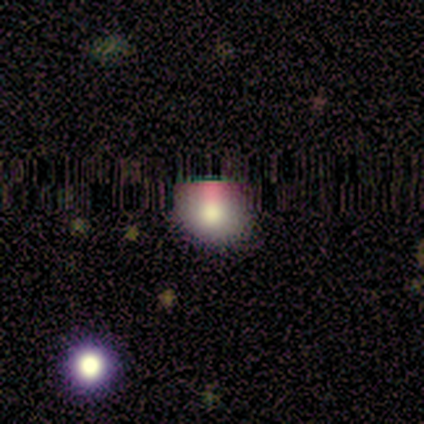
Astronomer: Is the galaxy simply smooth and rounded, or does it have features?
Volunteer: smooth — 65%.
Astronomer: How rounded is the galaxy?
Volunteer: round — 92%.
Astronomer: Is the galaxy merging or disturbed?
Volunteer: none — 71%.